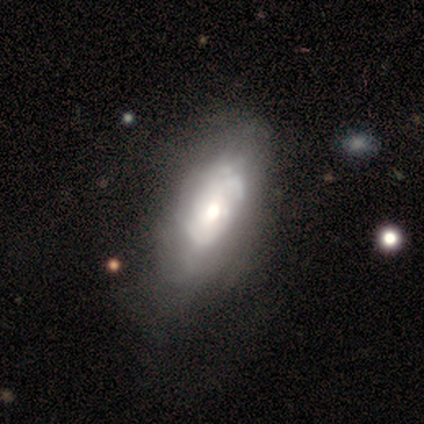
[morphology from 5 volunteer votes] This is marginally a smooth galaxy (40%, tied with featured or disk). How rounded: clearly in between (100%). Merging: possibly none (50%, tied with minor disturbance).